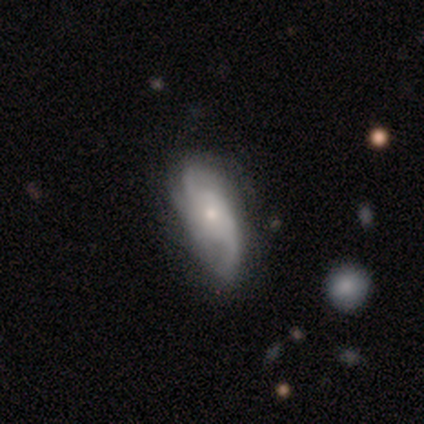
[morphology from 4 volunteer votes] A featured or disk galaxy (100%) with no bar (75%), 2 (50%) medium (50%) spiral arms (100%) and a small central bulge (50%).

Vote fractions:
- Smooth or featured? featured or disk: 100% / smooth: 0% / star or artifact: 0%
- Edge-on disk? no: 100% / yes: 0%
- Bar? no: 75% / weak: 25% / strong: 0%
- Spiral arms? yes: 100% / no: 0%
- Spiral winding? medium: 50% / tight: 25% / loose: 25%
- Spiral arm count? 2: 50% / 3: 25% / more than 4: 25% / 1: 0% / 4: 0% / can't tell: 0%
- Bulge size? small: 50% / large: 25% / moderate: 25% / dominant: 0% / none: 0%
- Merging? minor disturbance: 50% / none: 25% / major disturbance: 25% / merger: 0%